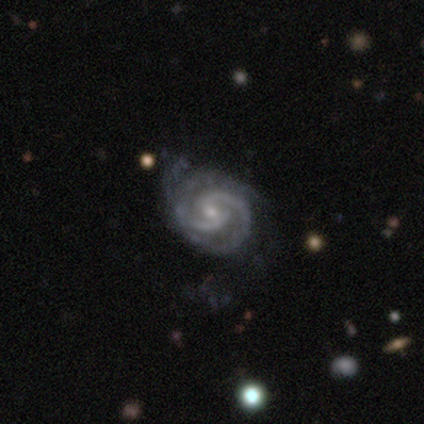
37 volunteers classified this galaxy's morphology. Volunteers were most divided on "bar": weak: 45%, no: 42%, strong: 13%. More confident: spiral arms — yes (100%); edge-on disk — no (97%); smooth or featured — featured or disk (86%); spiral arm count — 2 (77%); bulge size — small (61%); merging — none (53%); spiral winding — medium (52%).